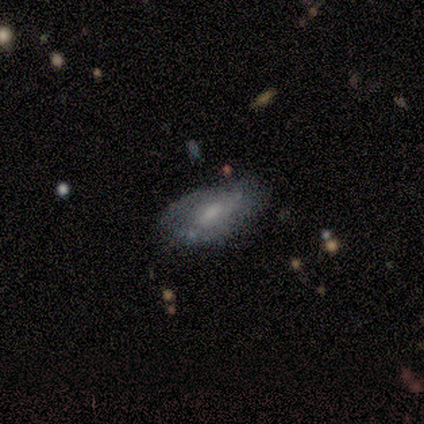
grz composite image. It shows a smooth galaxy with no disk features (60%) that is in between round and cigar-shaped (67%). Merging: minor disturbance (60%).